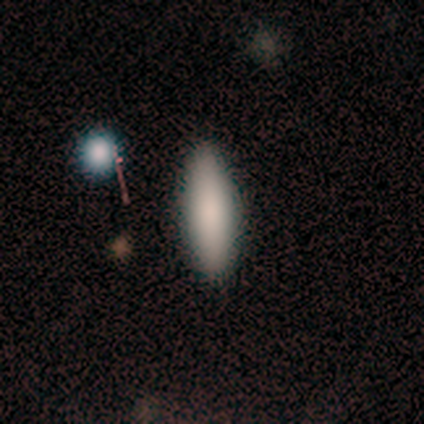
Smooth or featured? smooth (86%)
How rounded? in between (58%)
Merging? none (93%)